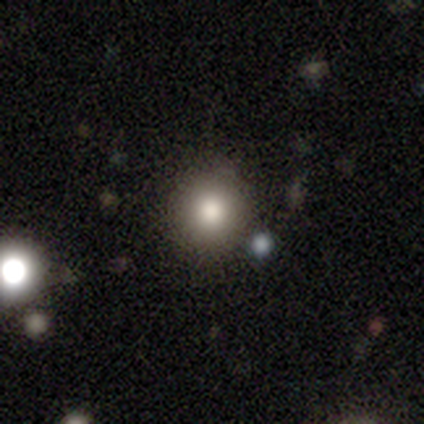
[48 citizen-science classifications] smooth_or_featured: smooth (p=0.71) [alt: star or artifact p=0.25]
how_rounded: round (p=0.97) [alt: in between p=0.03]
merging: none (p=0.69) [alt: minor disturbance p=0.19]